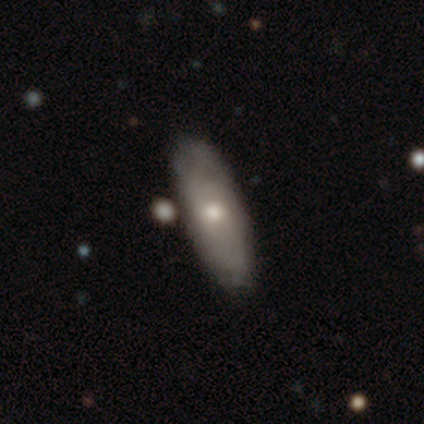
Overall: smooth (62%; featured or disk 33%). How rounded: in between (75%). Merging: none (81%).